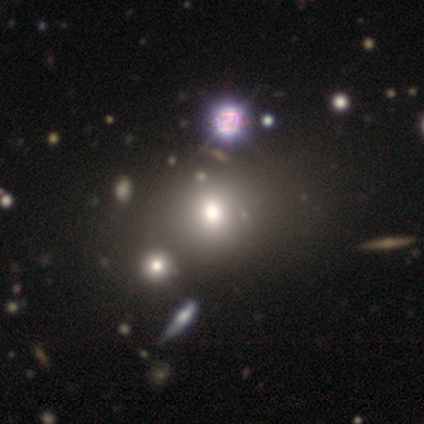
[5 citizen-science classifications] Smooth or featured: smooth — 40% (tied with featured or disk — 40%)
How rounded: round — 50% (tied with in between — 50%)
Merging: minor disturbance — 50% (none — 25%)